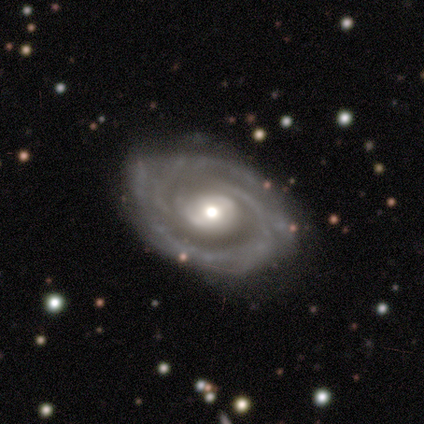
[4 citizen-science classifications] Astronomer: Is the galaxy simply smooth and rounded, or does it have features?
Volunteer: featured or disk — 75%.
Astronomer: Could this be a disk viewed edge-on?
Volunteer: no — 100%.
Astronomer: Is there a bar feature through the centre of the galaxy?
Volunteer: weak — 67%.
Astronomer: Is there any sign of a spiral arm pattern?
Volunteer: yes — 100%.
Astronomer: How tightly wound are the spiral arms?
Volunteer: medium — 67%.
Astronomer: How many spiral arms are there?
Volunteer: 2 — 67%.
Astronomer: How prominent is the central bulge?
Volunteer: small — 67%.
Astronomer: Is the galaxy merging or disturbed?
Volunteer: none — 100%.